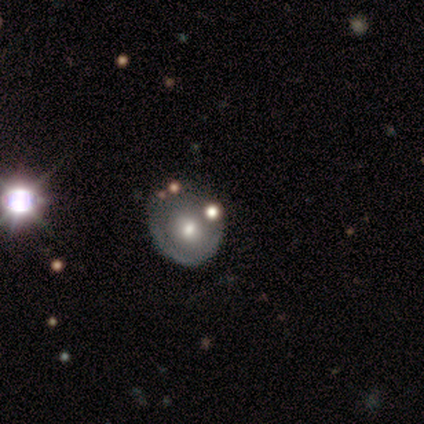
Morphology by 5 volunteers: Overall: featured or disk (60%; smooth 40%). Edge-on disk: no (100%). Bar: no (100%). Spiral arms: no (100%). Bulge size: moderate (100%). Merging: none (60%; minor disturbance 20%).